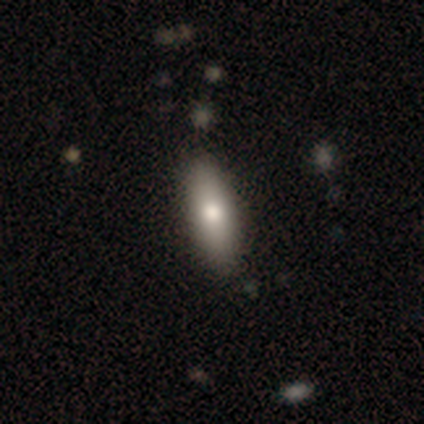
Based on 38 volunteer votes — Smooth or featured: smooth — 82% (featured or disk — 13%)
How rounded: cigar-shaped — 58% (in between — 39%)
Merging: none — 72% (minor disturbance — 19%)